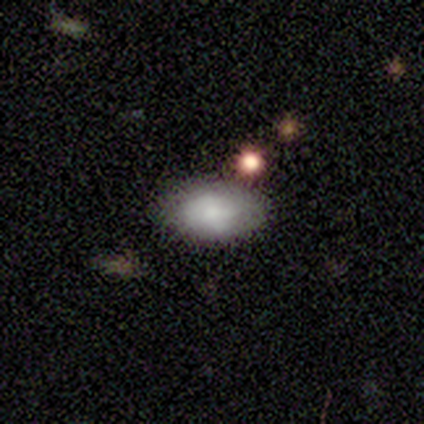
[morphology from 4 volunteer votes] This is likely a smooth galaxy (75%). How rounded: clearly in between (100%). Merging: likely none (75%).